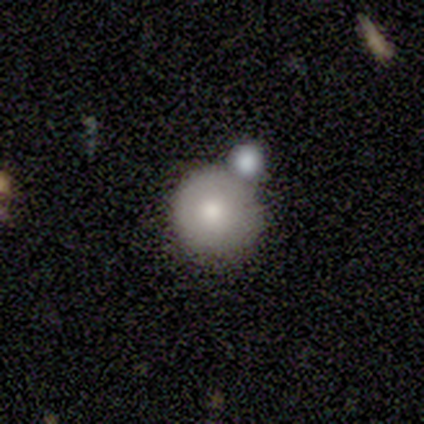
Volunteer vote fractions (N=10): A smooth galaxy with no disk features (80%) that is round (100%).

Vote fractions:
- Smooth or featured? smooth: 80% / featured or disk: 20% / star or artifact: 0%
- How rounded? round: 100% / in between: 0% / cigar-shaped: 0%
- Merging? none: 40% (tied) / minor disturbance: 40% (tied) / merger: 20% / major disturbance: 0%